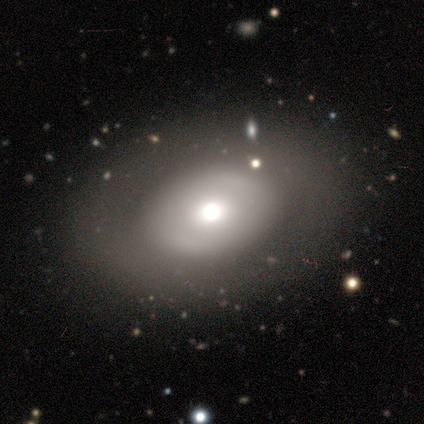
smooth_or_featured: smooth (p=0.50) [alt: featured or disk p=0.25]
how_rounded: round (p=0.50) [tied with: in between p=0.50]
merging: none (p=1.00)